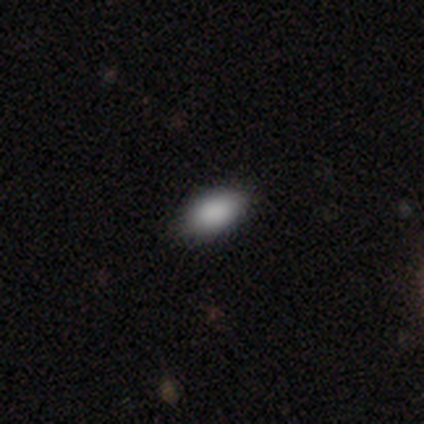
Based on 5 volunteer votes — smooth_or_featured: smooth (p=0.80) [alt: featured or disk p=0.20]
how_rounded: in between (p=1.00)
merging: none (p=1.00)